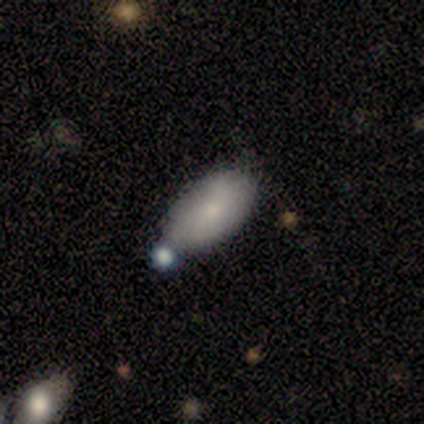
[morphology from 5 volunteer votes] A smooth galaxy with no disk features (100%) that is in between round and cigar-shaped (100%).

Vote fractions:
- Smooth or featured? smooth: 100% / featured or disk: 0% / star or artifact: 0%
- How rounded? in between: 100% / round: 0% / cigar-shaped: 0%
- Merging? none: 60% / merger: 40% / minor disturbance: 0% / major disturbance: 0%